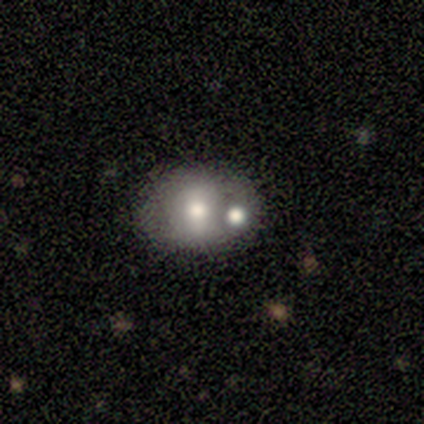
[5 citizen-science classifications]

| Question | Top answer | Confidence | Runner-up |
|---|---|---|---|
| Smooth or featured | smooth | 60% | featured or disk (20%) |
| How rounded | in between | 67% | round (33%) |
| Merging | none | 50% | tied: merger (50%) |